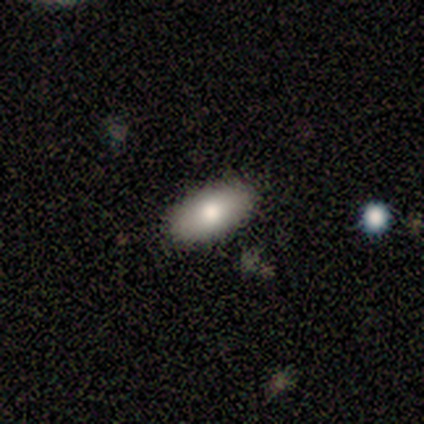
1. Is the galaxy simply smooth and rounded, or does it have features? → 100% smooth, 0% featured or disk, 0% star or artifact.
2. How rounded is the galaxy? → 80% in between, 20% cigar-shaped, 0% round.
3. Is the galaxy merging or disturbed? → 100% none, 0% minor disturbance, 0% major disturbance, 0% merger.